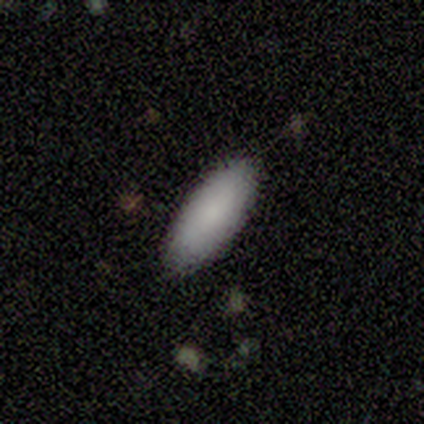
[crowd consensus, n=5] Smooth or featured: smooth — 80% (star or artifact — 20%)
How rounded: in between — 75% (cigar-shaped — 25%)
Merging: none — 100%